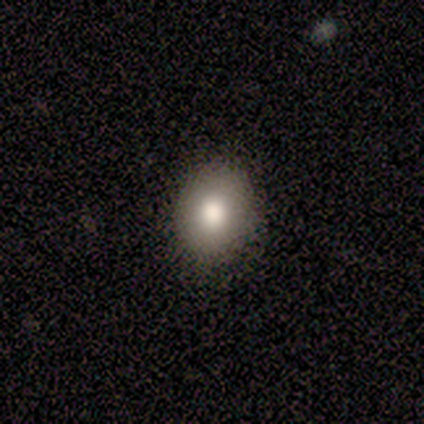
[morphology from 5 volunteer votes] Volunteers were most divided on "how rounded": round: 80%, in between: 20%, cigar-shaped: 0%. More confident: smooth or featured — smooth (100%); merging — none (100%).